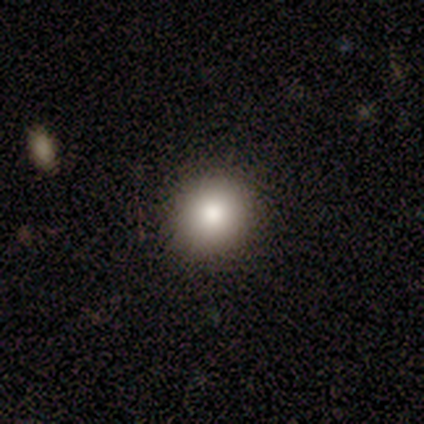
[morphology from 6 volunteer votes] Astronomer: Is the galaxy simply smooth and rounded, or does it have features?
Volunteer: smooth — 100%.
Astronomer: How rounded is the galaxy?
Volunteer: round — 67%.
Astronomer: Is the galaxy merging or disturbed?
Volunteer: none — 83%.